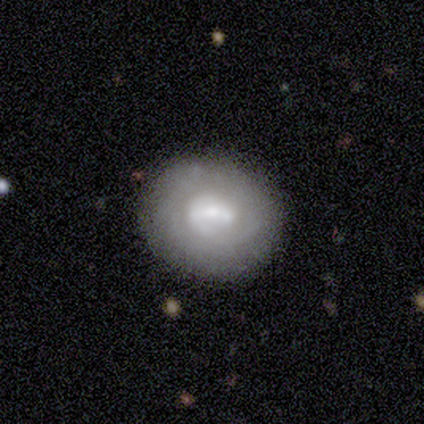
Q: Smooth or featured?
A: featured or disk (75%); runner-up: smooth (25%)
Q: Edge-on disk?
A: no (100%)
Q: Bar?
A: no (67%); runner-up: weak (33%)
Q: Spiral arms?
A: no (67%); runner-up: yes (33%)
Q: Bulge size?
A: small (67%); runner-up: moderate (33%)
Q: Merging?
A: none (75%); runner-up: minor disturbance (25%)